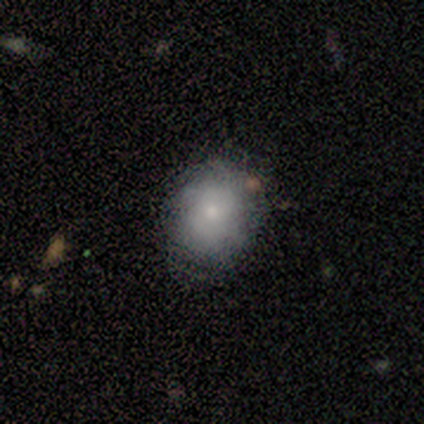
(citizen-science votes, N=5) Smooth or featured?
  - smooth: 40% * (tied)
  - featured or disk: 40% * (tied)
  - star or artifact: 20%
How rounded?
  - in between: 100% *
  - round: 0%
  - cigar-shaped: 0%
Merging?
  - minor disturbance: 50% *
  - none: 25%
  - major disturbance: 25%
  - merger: 0%